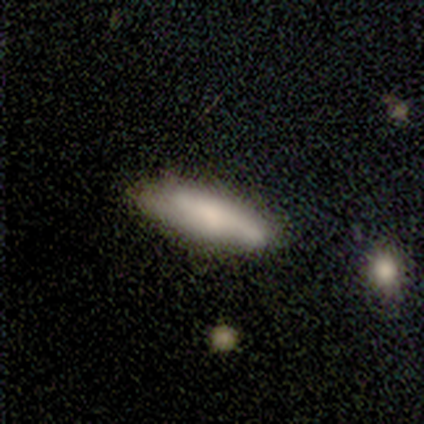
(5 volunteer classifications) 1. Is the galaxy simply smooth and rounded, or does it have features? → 80% smooth, 20% featured or disk, 0% star or artifact.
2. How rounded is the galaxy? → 100% cigar-shaped, 0% round, 0% in between.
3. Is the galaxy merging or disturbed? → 80% none, 20% minor disturbance, 0% major disturbance, 0% merger.